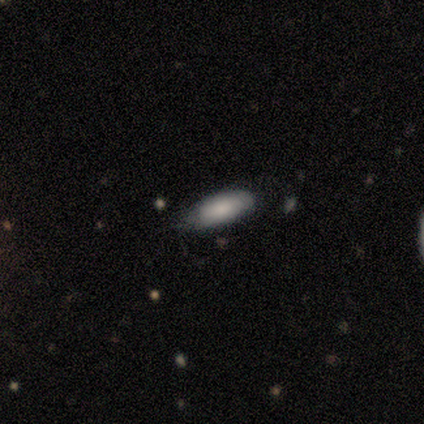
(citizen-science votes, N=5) Overall: smooth (100%). How rounded: in between (100%). Merging: none (60%; minor disturbance 40%).